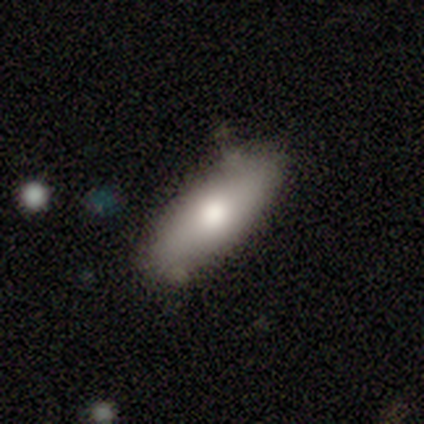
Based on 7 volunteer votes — A smooth galaxy with no disk features (71%) that is in between round and cigar-shaped (60%). Merging: none (100%).